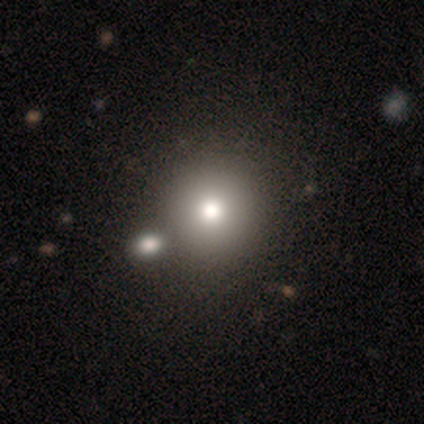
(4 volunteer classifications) Smooth or featured? smooth (75%)
How rounded? round (100%)
Merging? none (50%, tied with minor disturbance)